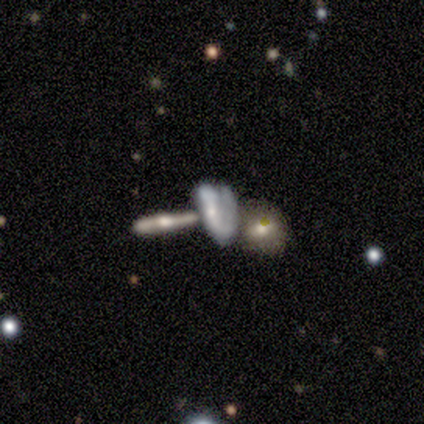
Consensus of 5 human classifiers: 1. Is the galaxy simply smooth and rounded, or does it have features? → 40% smooth (tied), 40% featured or disk (tied), 20% star or artifact.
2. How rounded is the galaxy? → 100% in between, 0% round, 0% cigar-shaped.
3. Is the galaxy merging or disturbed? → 50% major disturbance (tied), 50% merger (tied), 0% none, 0% minor disturbance.